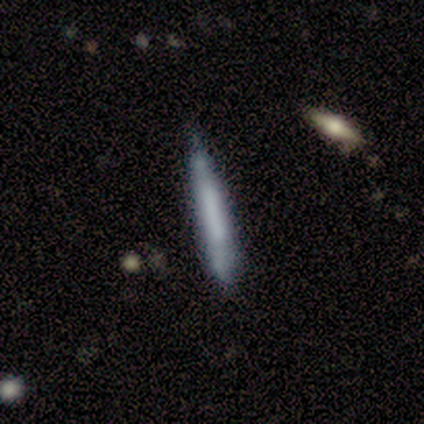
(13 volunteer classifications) A smooth galaxy with no disk features (62%) that is cigar-shaped (88%). Merging: none (85%).